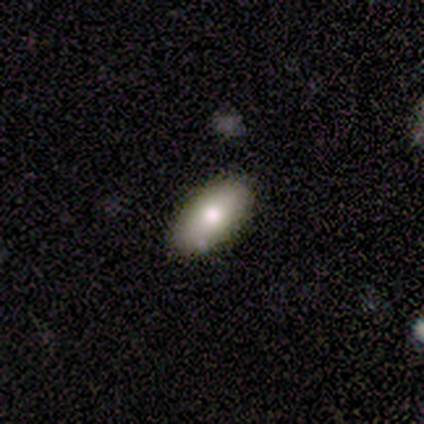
A smooth galaxy with no disk features (80%) that is in between round and cigar-shaped (75%).

Vote fractions:
- Smooth or featured? smooth: 80% / featured or disk: 20% / star or artifact: 0%
- How rounded? in between: 75% / cigar-shaped: 25% / round: 0%
- Merging? none: 80% / minor disturbance: 20% / major disturbance: 0% / merger: 0%